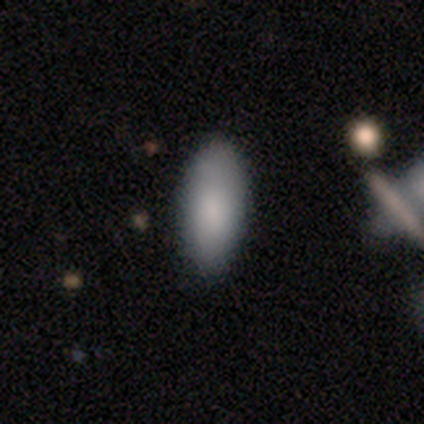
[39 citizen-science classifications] Overall: smooth (92%). How rounded: in between (89%). Merging: none (79%).